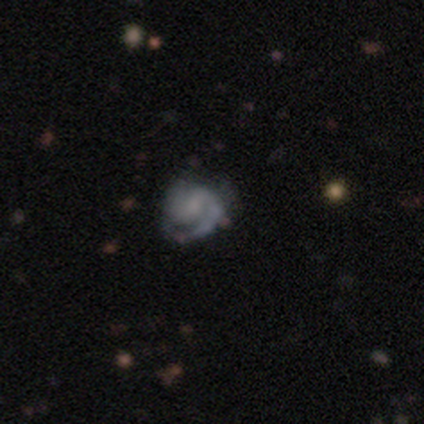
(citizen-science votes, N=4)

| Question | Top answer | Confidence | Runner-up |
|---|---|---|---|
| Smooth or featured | featured or disk | 100% | — |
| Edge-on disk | no | 100% | — |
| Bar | weak | 50% | tied: no (50%) |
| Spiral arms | yes | 100% | — |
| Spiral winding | tight | 50% | tied: medium (50%) |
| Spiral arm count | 2 | 75% | can't tell (25%) |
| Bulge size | small | 50% | moderate (25%) |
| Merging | none | 50% | minor disturbance (25%) |